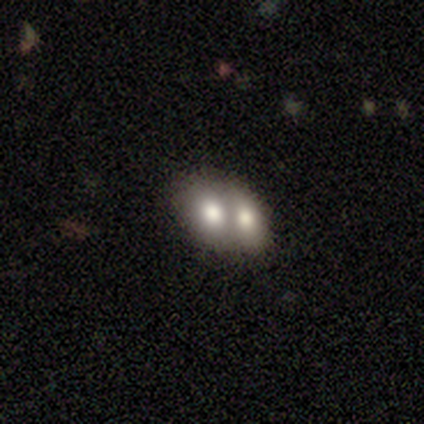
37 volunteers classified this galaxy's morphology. smooth_or_featured: smooth (p=0.68) [alt: featured or disk p=0.30]
how_rounded: in between (p=0.76) [alt: round p=0.20]
merging: merger (p=0.81) [alt: none p=0.19]